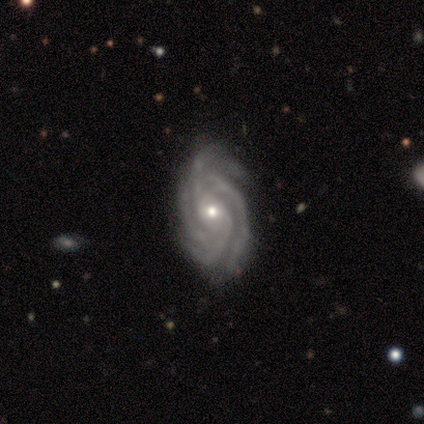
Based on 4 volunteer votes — Smooth or featured: featured or disk — 100%
Edge-on disk: no — 100%
Bar: no — 75% (weak — 25%)
Spiral arms: yes — 100%
Spiral winding: medium — 50% (tight — 25%)
Spiral arm count: 2 — 25% (tied with 4 — 25%; more than 4 — 25%; can't tell — 25%)
Bulge size: moderate — 75% (small — 25%)
Merging: none — 50% (tied with minor disturbance — 50%)